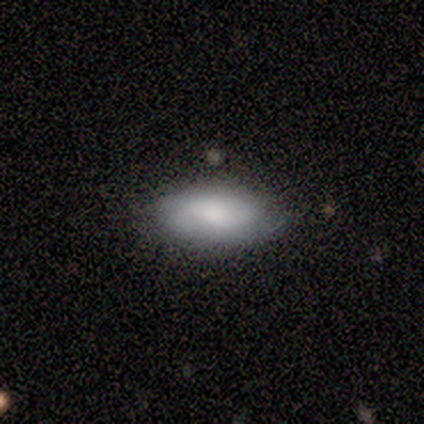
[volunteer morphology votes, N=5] This appears to be a smooth galaxy with no disk features (40%, tied with featured or disk) that is in between round and cigar-shaped (100%). Merging: none (75%).